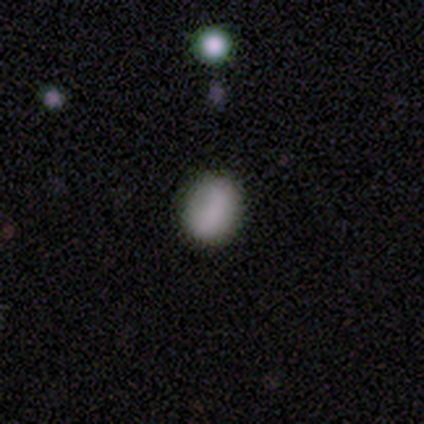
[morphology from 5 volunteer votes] Smooth or featured? 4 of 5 (80%) said smooth. How rounded? 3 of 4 (75%) said in between. Merging? 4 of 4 (100%) said none.